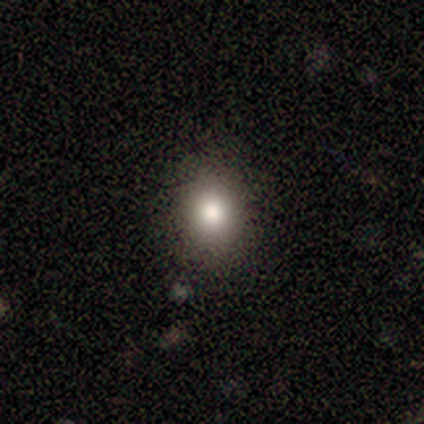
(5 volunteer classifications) A smooth galaxy with no disk features (60%) that is round (100%). Merging: none (80%).